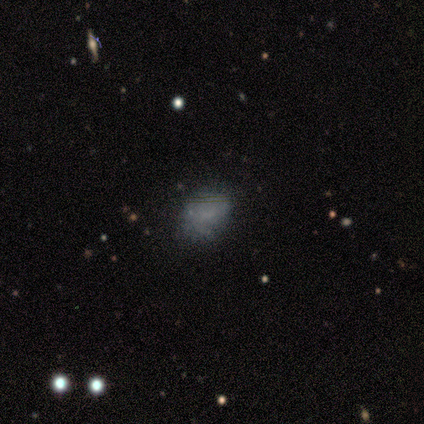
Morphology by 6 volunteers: smooth-or-featured: smooth: 83% | star or artifact: 17% | featured or disk: 0%
  how-rounded: round: 40% (tied) | in between: 40% (tied) | cigar-shaped: 20%
  merging: none: 80% | minor disturbance: 20% | major disturbance: 0% | merger: 0%